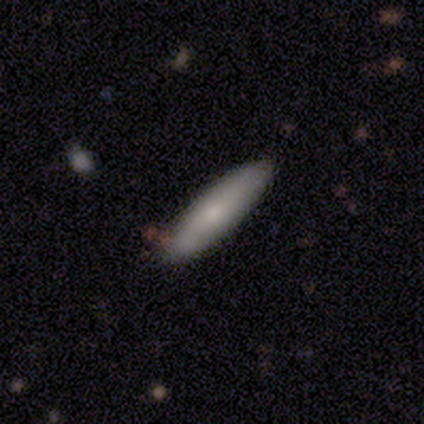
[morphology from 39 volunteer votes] This appears to be a smooth galaxy with no disk features (77%) that is cigar-shaped (77%). Merging: none (76%).